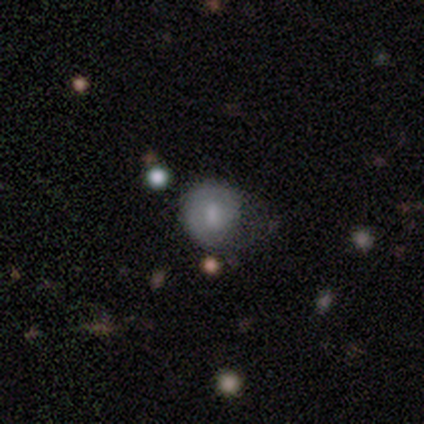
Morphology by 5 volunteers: type=smooth (80%); roundness=round (100%); merging=major disturbance (40%).